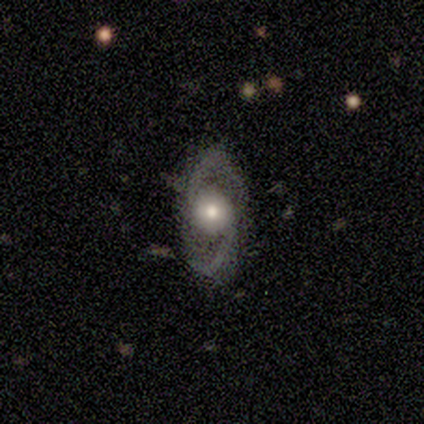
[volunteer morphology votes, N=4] Volunteers were most divided on "spiral arms" (2-way tie): yes: 50%, no: 50%; "spiral winding" (2-way tie): tight: 50%, loose: 50%, medium: 0%. More confident: smooth or featured — featured or disk (100%); edge-on disk — no (100%); bar — no (100%); spiral arm count — 2 (100%); merging — none (100%); bulge size — moderate (75%).